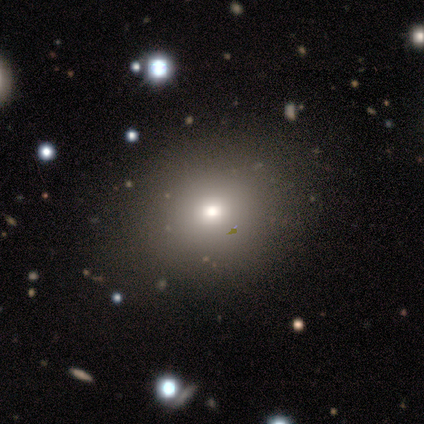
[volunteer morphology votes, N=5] Smooth or featured: smooth — 60% (featured or disk — 20%)
How rounded: round — 100%
Merging: none — 100%